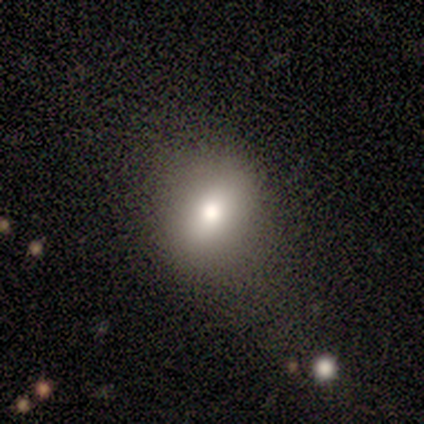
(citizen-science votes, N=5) Morphology: type=smooth (60%); roundness=round (67%); merging=none (67%).